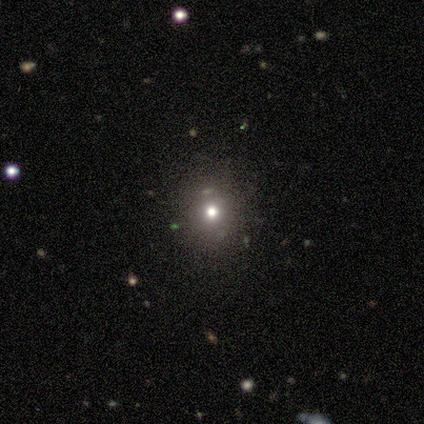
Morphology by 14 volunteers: Smooth or featured?
  - smooth: 57% *
  - star or artifact: 36%
  - featured or disk: 7%
How rounded?
  - round: 100% *
  - in between: 0%
  - cigar-shaped: 0%
Merging?
  - none: 78% *
  - minor disturbance: 22%
  - major disturbance: 0%
  - merger: 0%